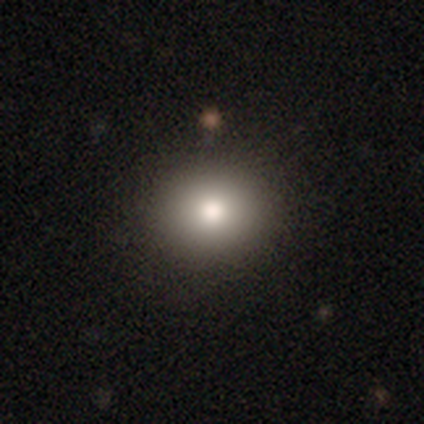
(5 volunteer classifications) Smooth or featured? smooth (100%)
How rounded? round (80%)
Merging? none (100%)